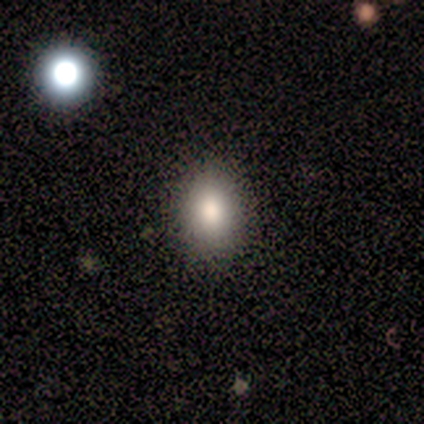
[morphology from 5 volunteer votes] Overall: smooth (100%). How rounded: in between (60%; round 40%). Merging: none (80%).